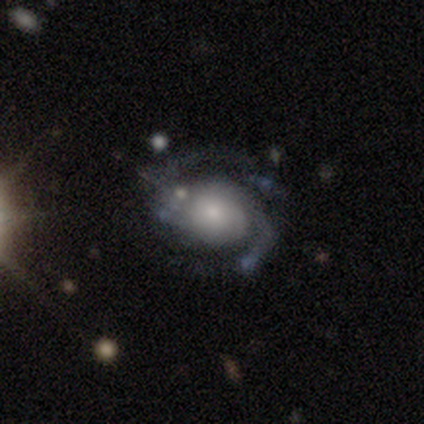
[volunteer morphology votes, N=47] Smooth or featured: featured or disk — 81% (star or artifact — 13%)
Edge-on disk: no — 100%
Bar: no — 79% (weak — 18%)
Spiral arms: yes — 89% (no — 11%)
Spiral winding: medium — 50% (tight — 29%)
Spiral arm count: 2 — 82% (3 — 15%)
Bulge size: small — 47% (moderate — 32%)
Merging: none — 66% (minor disturbance — 22%)